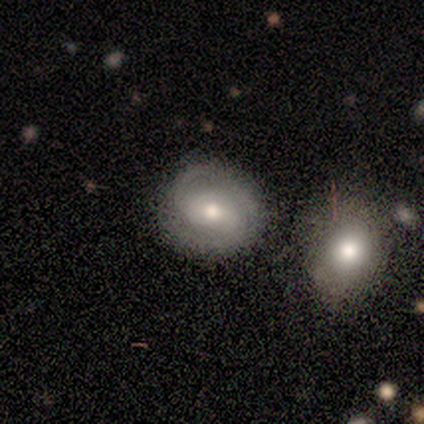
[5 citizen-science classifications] Q: Smooth or featured?
A: featured or disk (60%); runner-up: smooth (40%)
Q: Edge-on disk?
A: no (100%)
Q: Bar?
A: strong (33%); tied with: weak (33%); no (33%)
Q: Spiral arms?
A: yes (100%)
Q: Spiral winding?
A: tight (67%); runner-up: medium (33%)
Q: Spiral arm count?
A: 2 (67%); runner-up: 3 (33%)
Q: Bulge size?
A: moderate (100%)
Q: Merging?
A: none (80%); runner-up: minor disturbance (20%)